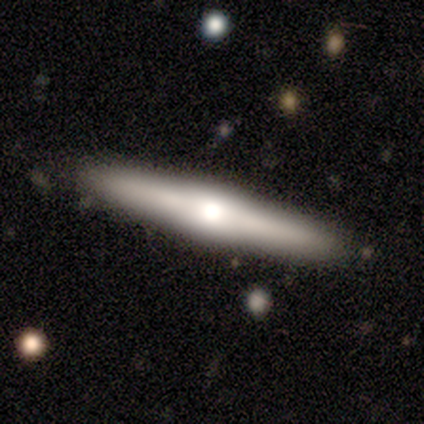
Smooth or featured? 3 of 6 (50%, tied with featured or disk) said smooth. How rounded? 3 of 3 (100%) said cigar-shaped. Merging? 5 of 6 (83%) said none.